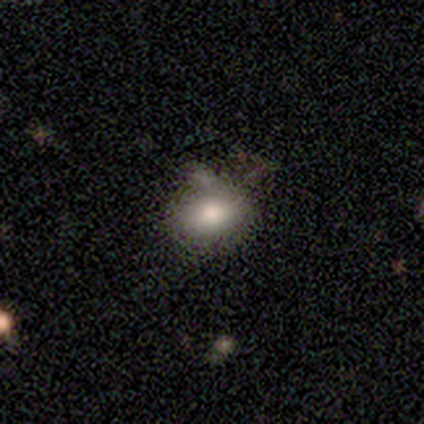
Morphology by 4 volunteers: This appears to be a featured or disk galaxy (75%) with no bar (100%), no spiral arms (100%) and a moderate central bulge (67%). Merging: none (50%, tied with minor disturbance).